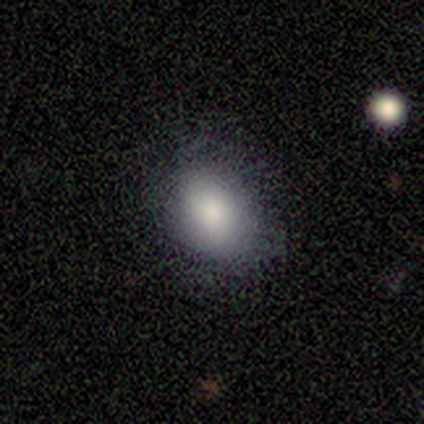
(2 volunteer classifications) smooth-or-featured: smooth: 100% | featured or disk: 0% | star or artifact: 0%
  how-rounded: in between: 100% | round: 0% | cigar-shaped: 0%
  merging: none: 100% | minor disturbance: 0% | major disturbance: 0% | merger: 0%